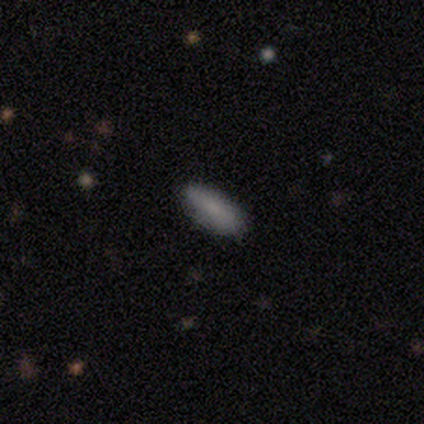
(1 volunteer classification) smooth_or_featured: smooth (p=1.00)
how_rounded: in between (p=1.00)
merging: minor disturbance (p=1.00)